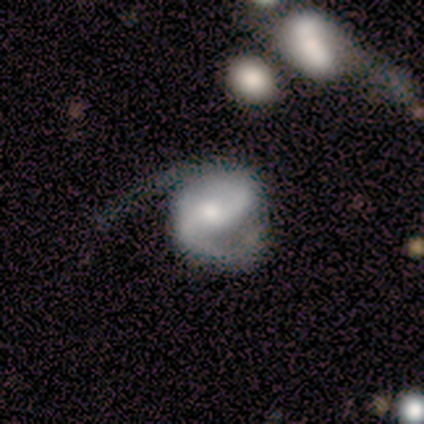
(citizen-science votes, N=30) This appears to be a featured or disk galaxy (57%) with a weak bar (64%), 2 (77%) medium (46%) spiral arms (93%) and a small central bulge (57%). Merging: major disturbance (46%).